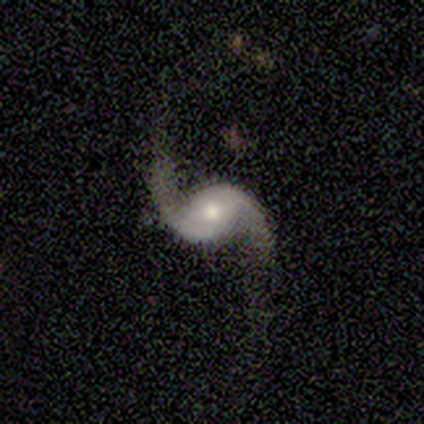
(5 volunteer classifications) Overall: featured or disk (100%). Edge-on disk: no (100%). Bar: weak (60%; no 40%). Spiral arms: yes (100%). Spiral arm count: 2 (100%). Spiral winding: loose (100%). Bulge size: moderate (100%). Merging: none (100%).